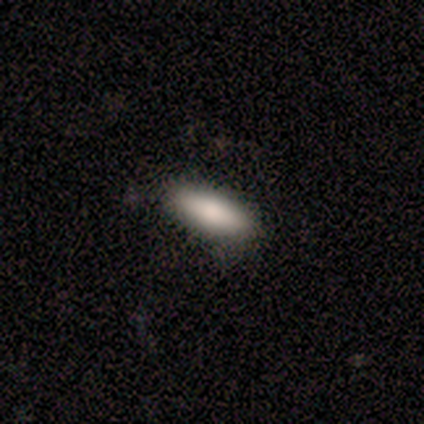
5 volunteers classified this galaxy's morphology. type=smooth (80%); roundness=in between (75%); merging=none (80%).